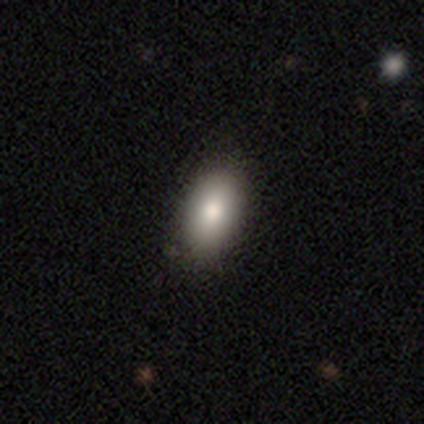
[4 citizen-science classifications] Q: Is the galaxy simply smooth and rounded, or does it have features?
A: smooth — 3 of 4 (75%).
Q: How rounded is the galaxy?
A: in between — 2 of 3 (67%).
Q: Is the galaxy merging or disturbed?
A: none — 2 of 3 (67%).